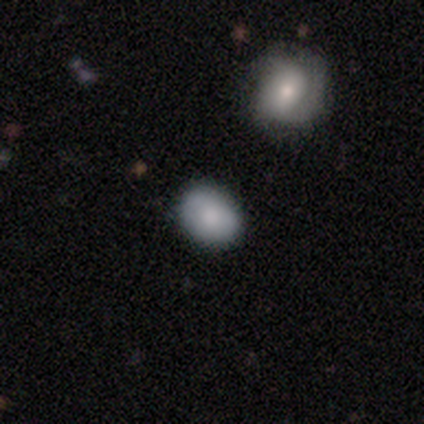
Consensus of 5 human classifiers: This is clearly a smooth galaxy (80%). How rounded: possibly round (50%, tied with in between). Merging: likely none (75%).